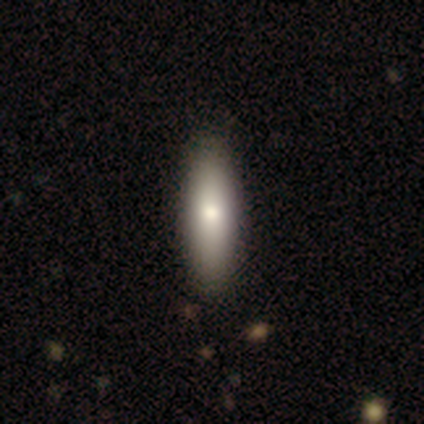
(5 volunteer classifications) smooth_or_featured: featured or disk (p=0.60) [alt: smooth p=0.20]
disk_edge_on: yes (p=0.67) [alt: no p=0.33]
edge_on_bulge: rounded (p=1.00)
merging: none (p=1.00)